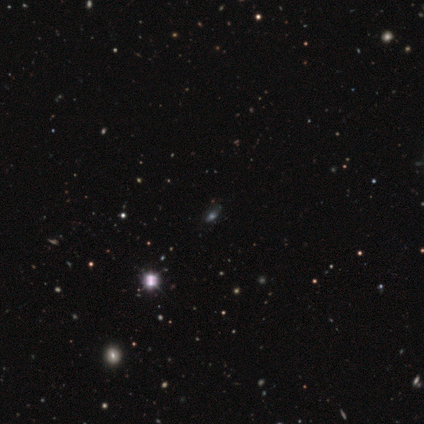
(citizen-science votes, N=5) This is likely a star or artifact rather than a galaxy (60%).